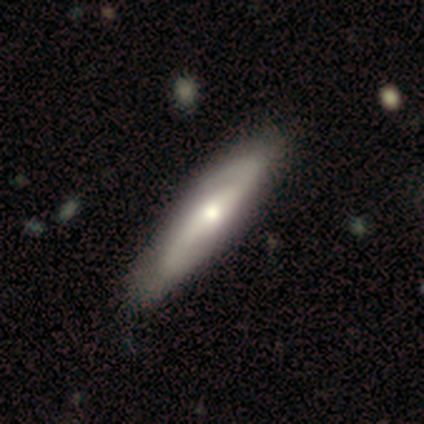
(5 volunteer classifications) Volunteers were most divided on "edge-on disk" (2-way tie): yes: 50%, no: 50%. More confident: edge-on bulge — rounded (100%); merging — none (100%); smooth or featured — featured or disk (80%).